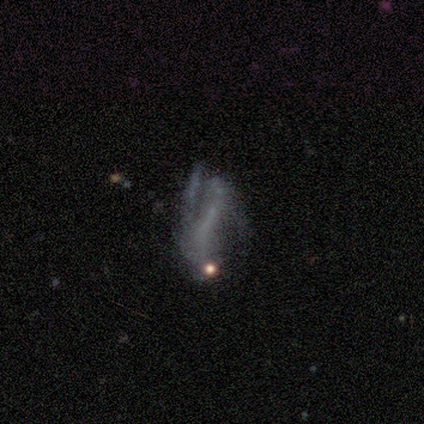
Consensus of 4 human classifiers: smooth-or-featured: smooth: 50% (tied) | star or artifact: 50% (tied) | featured or disk: 0%
  how-rounded: in between: 50% (tied) | cigar-shaped: 50% (tied) | round: 0%
  merging: none: 50% (tied) | major disturbance: 50% (tied) | minor disturbance: 0% | merger: 0%